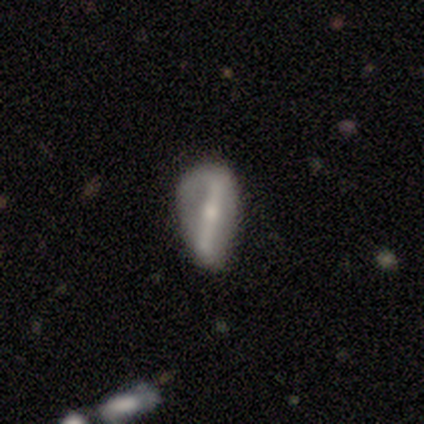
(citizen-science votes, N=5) featured or disk 60%, smooth 20%, star or artifact 20%. Down the decision tree: edge-on disk — no (67%); bar — strong (100%); spiral arms — yes (100%); spiral arm count — 2 (50%, tied with can't tell); spiral winding — loose (100%); bulge size — moderate (50%, tied with small); merging — minor disturbance (50%).